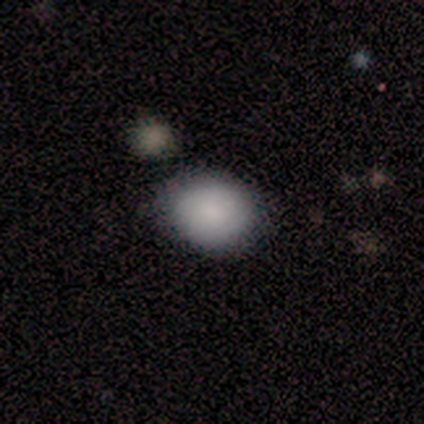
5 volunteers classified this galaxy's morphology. This is clearly a smooth galaxy (100%). How rounded: likely round (60%). Merging: clearly none (100%).